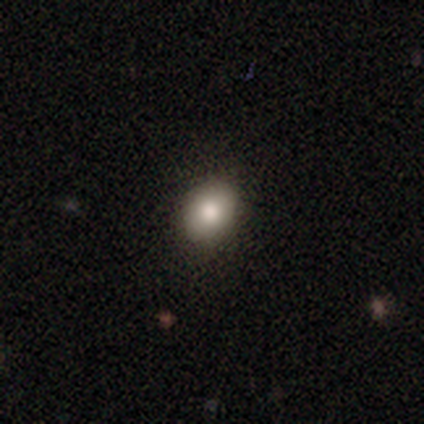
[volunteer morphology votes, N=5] Smooth or featured? smooth (80%)
How rounded? round (50%, tied with in between)
Merging? none (100%)